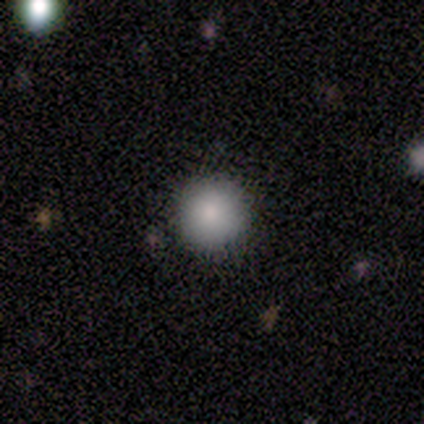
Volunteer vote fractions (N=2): Smooth or featured: smooth — 50% (tied with star or artifact — 50%)
How rounded: round — 100%
Merging: minor disturbance — 100%